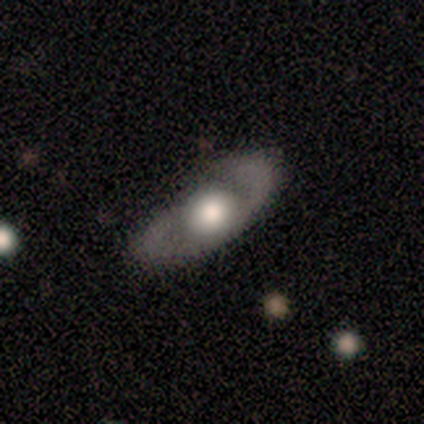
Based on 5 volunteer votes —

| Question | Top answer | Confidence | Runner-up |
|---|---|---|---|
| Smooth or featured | smooth | 60% | featured or disk (40%) |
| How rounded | in between | 100% | — |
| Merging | none | 100% | — |